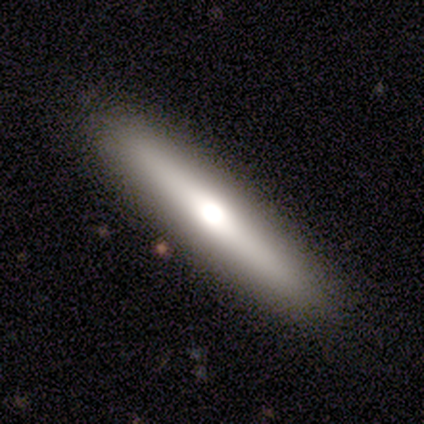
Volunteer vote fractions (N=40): smooth-or-featured: featured or disk: 57% | smooth: 40% | star or artifact: 2%
  disk-edge-on: yes: 96% | no: 4%
    edge-on-bulge: rounded: 95% | none: 5% | boxy: 0%
  merging: none: 92% | minor disturbance: 5% | major disturbance: 3% | merger: 0%